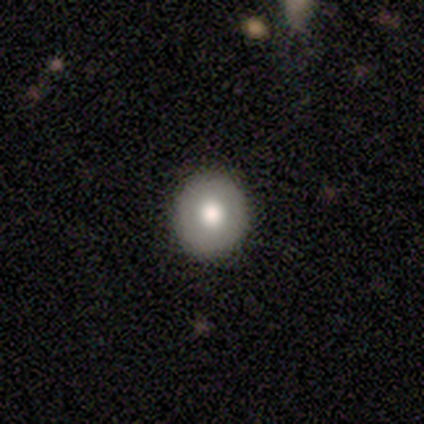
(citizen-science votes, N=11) smooth-or-featured: smooth: 82% | featured or disk: 9% | star or artifact: 9%
  how-rounded: round: 78% | in between: 22% | cigar-shaped: 0%
  merging: none: 100% | minor disturbance: 0% | major disturbance: 0% | merger: 0%